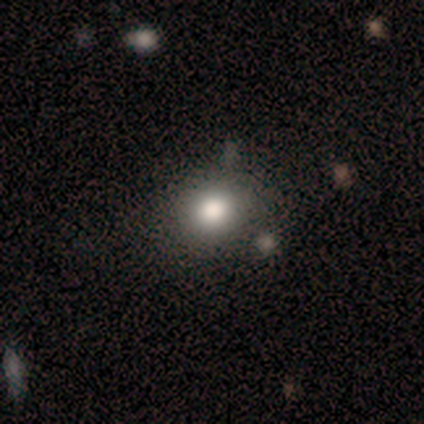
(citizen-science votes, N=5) Overall: smooth (60%; featured or disk 40%). How rounded: round (100%). Merging: none (60%; minor disturbance 40%).